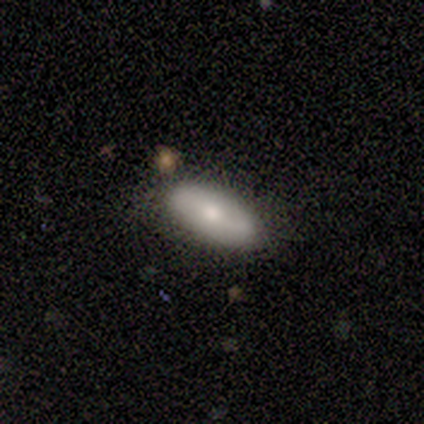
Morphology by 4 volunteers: smooth-or-featured: smooth: 75% | featured or disk: 25% | star or artifact: 0%
  how-rounded: in between: 100% | round: 0% | cigar-shaped: 0%
  merging: none: 100% | minor disturbance: 0% | major disturbance: 0% | merger: 0%